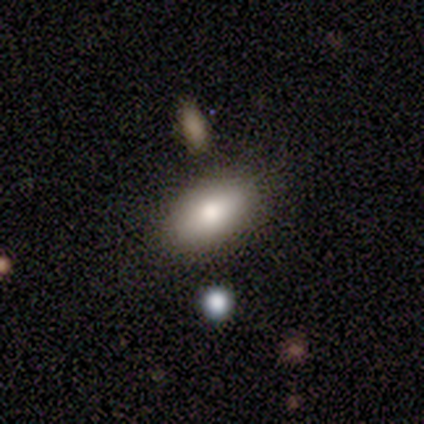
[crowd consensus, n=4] Smooth or featured?
  - smooth: 100% *
  - featured or disk: 0%
  - star or artifact: 0%
How rounded?
  - in between: 100% *
  - round: 0%
  - cigar-shaped: 0%
Merging?
  - none: 100% *
  - minor disturbance: 0%
  - major disturbance: 0%
  - merger: 0%